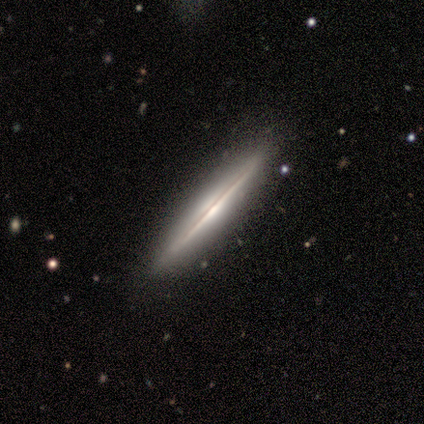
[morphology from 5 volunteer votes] smooth-or-featured: featured or disk: 100% | smooth: 0% | star or artifact: 0%
  disk-edge-on: yes: 100% | no: 0%
    edge-on-bulge: rounded: 60% | boxy: 20% | none: 20%
  merging: none: 100% | minor disturbance: 0% | major disturbance: 0% | merger: 0%